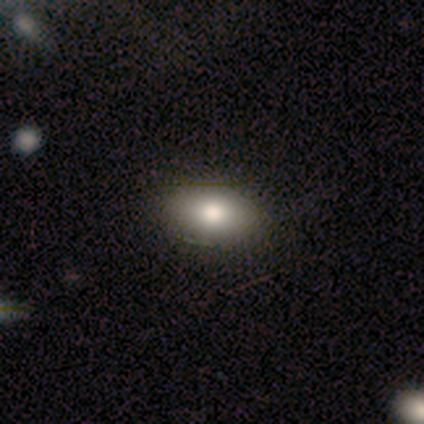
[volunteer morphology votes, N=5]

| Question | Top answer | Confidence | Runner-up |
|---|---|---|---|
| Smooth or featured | smooth | 60% | featured or disk (20%) |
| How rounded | in between | 67% | round (33%) |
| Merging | none | 50% | minor disturbance (25%) |